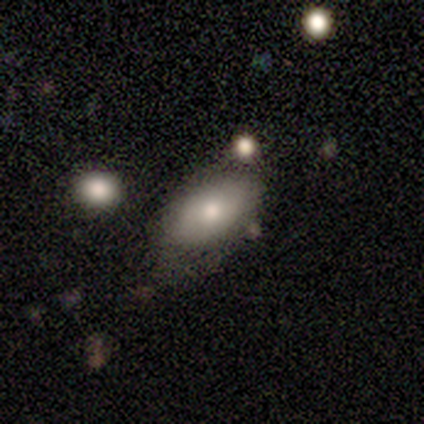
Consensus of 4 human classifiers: Overall: smooth (100%). How rounded: in between (100%). Merging: minor disturbance (75%).